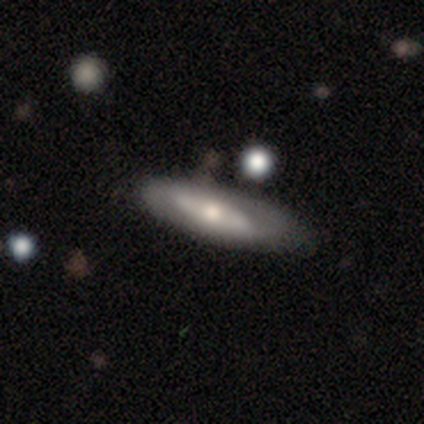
Q: Smooth or featured?
A: featured or disk (80%); runner-up: smooth (20%)
Q: Edge-on disk?
A: yes (75%); runner-up: no (25%)
Q: Edge-on bulge?
A: rounded (100%)
Q: Merging?
A: none (80%); runner-up: minor disturbance (20%)